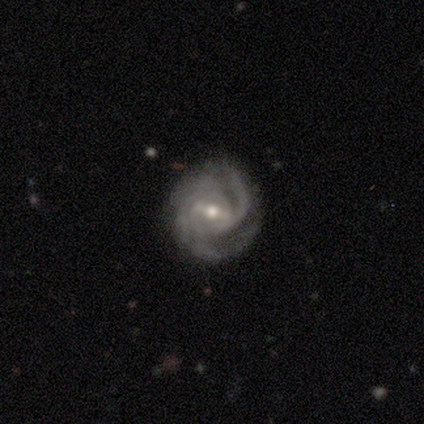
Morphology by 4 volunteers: Q: Smooth or featured?
A: featured or disk (100%)
Q: Edge-on disk?
A: no (100%)
Q: Bar?
A: strong (75%); runner-up: weak (25%)
Q: Spiral arms?
A: yes (100%)
Q: Spiral winding?
A: tight (50%); runner-up: medium (25%)
Q: Spiral arm count?
A: 3 (50%); tied with: 4 (50%)
Q: Bulge size?
A: moderate (75%); runner-up: small (25%)
Q: Merging?
A: none (100%)